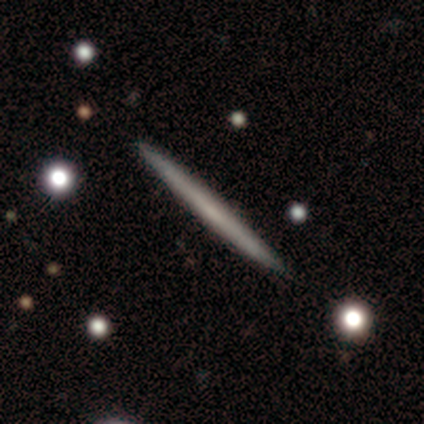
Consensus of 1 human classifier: A smooth galaxy with no disk features (100%) that is cigar-shaped (100%). Merging: minor disturbance (100%).